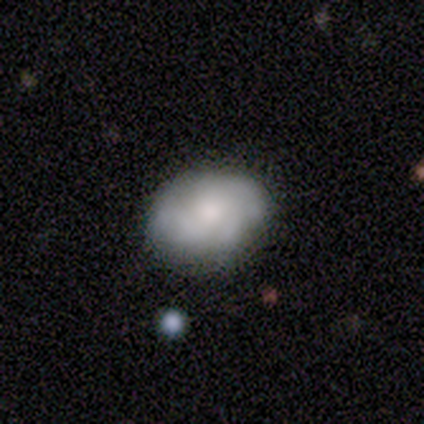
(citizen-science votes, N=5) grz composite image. It shows a featured or disk galaxy (80%) with a weak bar (50%, tied with no), 3 (50%, tied with can't tell) tight (100%) spiral arms (50%, tied with no) and a moderate central bulge (50%). Merging: none (80%).